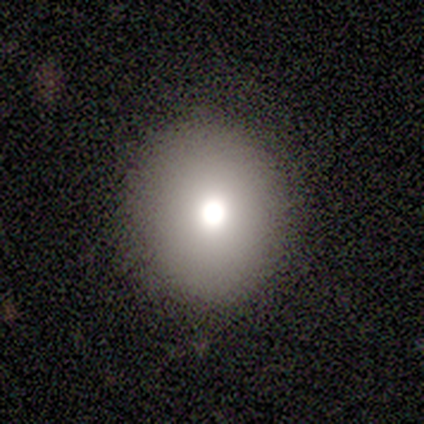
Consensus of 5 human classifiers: smooth-or-featured: smooth: 80% | featured or disk: 20% | star or artifact: 0%
  how-rounded: round: 50% (tied) | in between: 50% (tied) | cigar-shaped: 0%
  merging: none: 100% | minor disturbance: 0% | major disturbance: 0% | merger: 0%